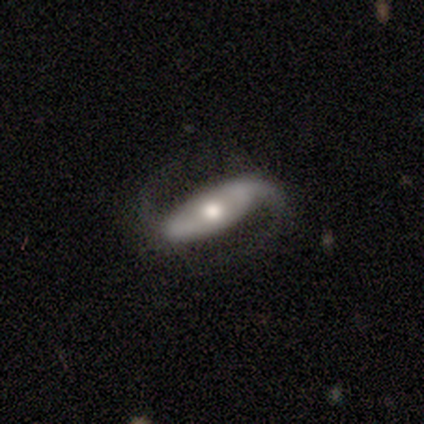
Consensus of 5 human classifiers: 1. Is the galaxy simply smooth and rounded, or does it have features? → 60% featured or disk, 40% smooth, 0% star or artifact.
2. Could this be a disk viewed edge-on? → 100% no, 0% yes.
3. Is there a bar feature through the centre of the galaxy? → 67% weak, 33% strong, 0% no.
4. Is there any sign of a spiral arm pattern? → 67% yes, 33% no.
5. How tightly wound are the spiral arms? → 50% medium (tied), 50% loose (tied), 0% tight.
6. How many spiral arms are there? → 100% 2, 0% 1, 0% 3, 0% 4, 0% more than 4, 0% can't tell.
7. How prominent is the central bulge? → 100% moderate, 0% dominant, 0% large, 0% small, 0% none.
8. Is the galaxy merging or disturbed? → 80% none, 20% minor disturbance, 0% major disturbance, 0% merger.